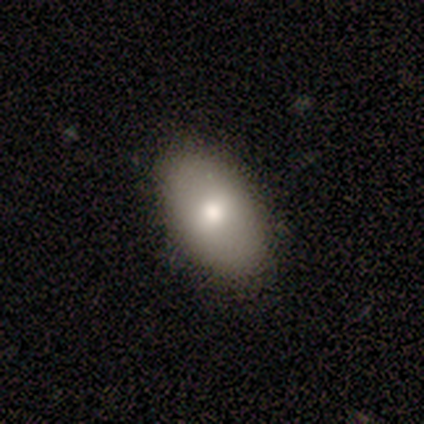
smooth 75%, featured or disk 25%, star or artifact 0%. Down the decision tree: how rounded — in between (100%); merging — none (50%, tied with minor disturbance).